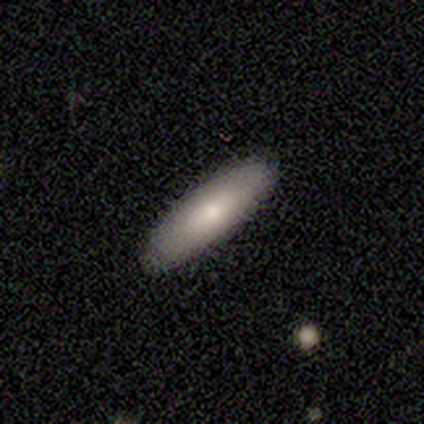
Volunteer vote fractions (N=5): Q: Smooth or featured?
A: featured or disk (60%); runner-up: smooth (40%)
Q: Edge-on disk?
A: yes (67%); runner-up: no (33%)
Q: Edge-on bulge?
A: none (100%)
Q: Merging?
A: none (100%)